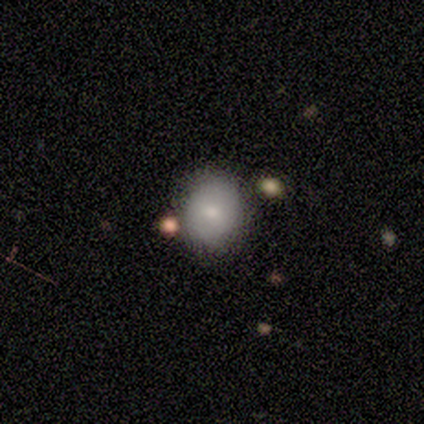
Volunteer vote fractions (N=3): Volunteers were most divided on "how rounded" (2-way tie): round: 50%, in between: 50%, cigar-shaped: 0%. More confident: merging — none (100%); smooth or featured — smooth (67%).